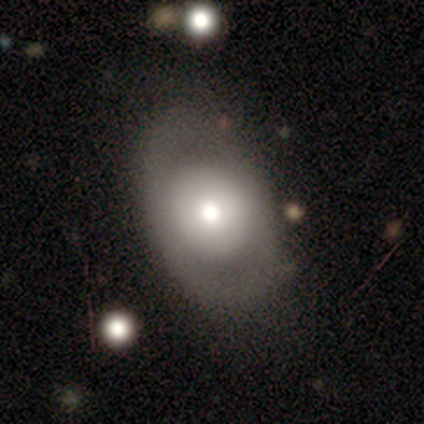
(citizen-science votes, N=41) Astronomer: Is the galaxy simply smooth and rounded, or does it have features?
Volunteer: smooth — 61%.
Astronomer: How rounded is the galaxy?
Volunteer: in between — 84%.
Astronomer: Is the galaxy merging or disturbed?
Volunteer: none — 71%.